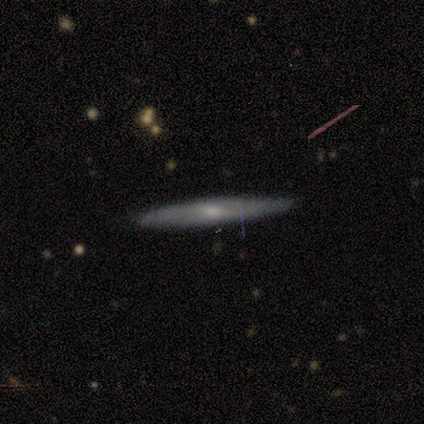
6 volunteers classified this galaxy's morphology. A smooth galaxy with no disk features (67%) that is cigar-shaped (100%).

Vote fractions:
- Smooth or featured? smooth: 67% / featured or disk: 33% / star or artifact: 0%
- How rounded? cigar-shaped: 100% / round: 0% / in between: 0%
- Merging? none: 100% / minor disturbance: 0% / major disturbance: 0% / merger: 0%